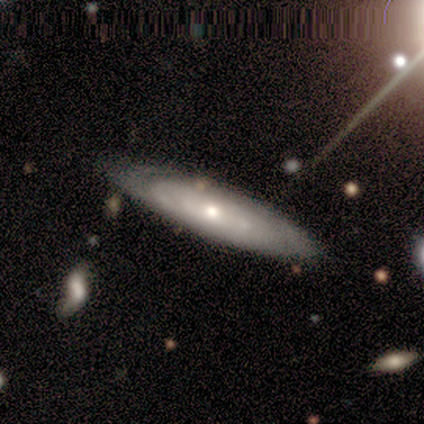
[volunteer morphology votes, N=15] smooth-or-featured: featured or disk: 87% | smooth: 13% | star or artifact: 0%
  disk-edge-on: no: 77% | yes: 23%
    bar: no: 90% | strong: 10% | weak: 0%
    has-spiral-arms: yes: 70% | no: 30%
      spiral-winding: tight: 86% | medium: 14% | loose: 0%
      spiral-arm-count: can't tell: 71% | 2: 14% | more than 4: 14% | 1: 0% | 3: 0% | 4: 0%
    bulge-size: small: 50% | moderate: 40% | dominant: 10% | large: 0% | none: 0%
  merging: none: 73% | minor disturbance: 13% | major disturbance: 7% | merger: 7%